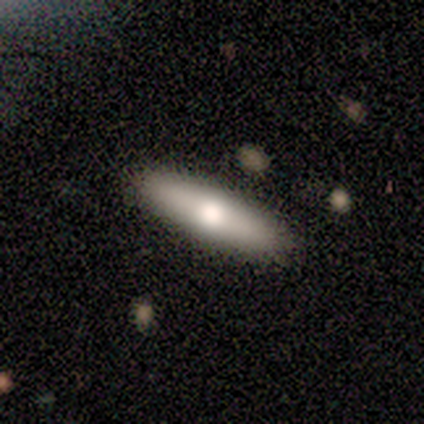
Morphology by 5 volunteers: Smooth or featured? smooth (80%)
How rounded? cigar-shaped (100%)
Merging? none (100%)